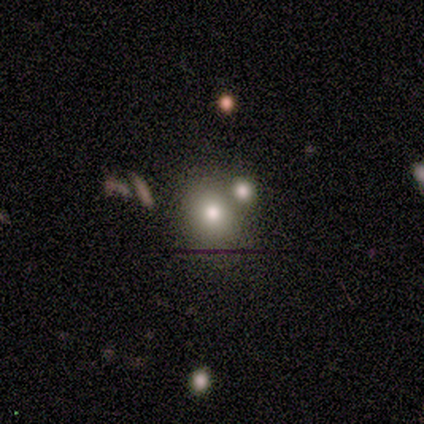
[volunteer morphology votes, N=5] type=smooth (80%); roundness=round (75%); merging=none (50%).